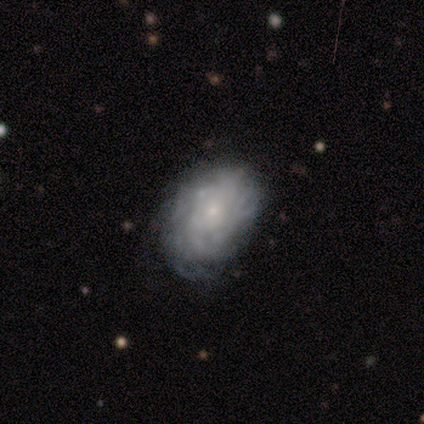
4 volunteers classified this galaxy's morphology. Overall: featured or disk (100%). Edge-on disk: no (100%). Bar: no (100%). Spiral arms: yes (75%). Spiral arm count: more than 4 (67%; can't tell 33%). Spiral winding: tight (67%; medium 33%). Bulge size: small (75%). Merging: none (100%).